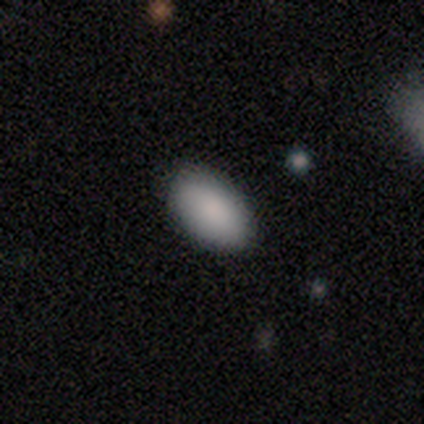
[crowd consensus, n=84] smooth-or-featured: smooth: 88% | featured or disk: 6% | star or artifact: 6%
  how-rounded: in between: 93% | round: 7% | cigar-shaped: 0%
  merging: none: 90% | minor disturbance: 9% | major disturbance: 1% | merger: 0%